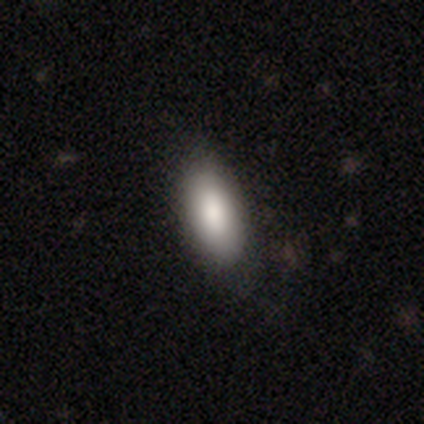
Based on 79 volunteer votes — Q: Smooth or featured?
A: smooth (84%); runner-up: featured or disk (10%)
Q: How rounded?
A: in between (89%); runner-up: cigar-shaped (9%)
Q: Merging?
A: none (45%); runner-up: minor disturbance (16%)